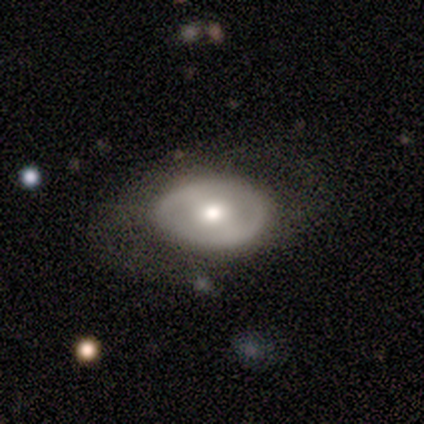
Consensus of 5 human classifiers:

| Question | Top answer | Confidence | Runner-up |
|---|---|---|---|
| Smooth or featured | smooth | 60% | featured or disk (40%) |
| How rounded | round | 67% | in between (33%) |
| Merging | none | 40% | tied: minor disturbance (40%) |